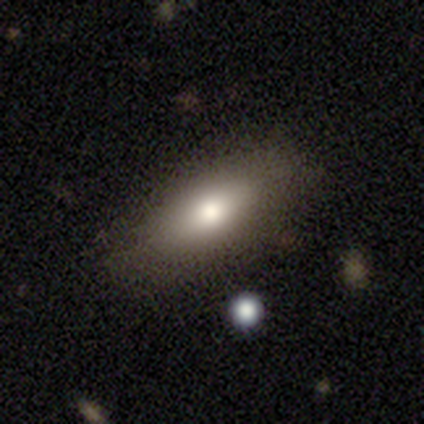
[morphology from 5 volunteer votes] smooth_or_featured: smooth (p=0.80) [alt: featured or disk p=0.20]
how_rounded: in between (p=1.00)
merging: none (p=0.80) [alt: minor disturbance p=0.20]